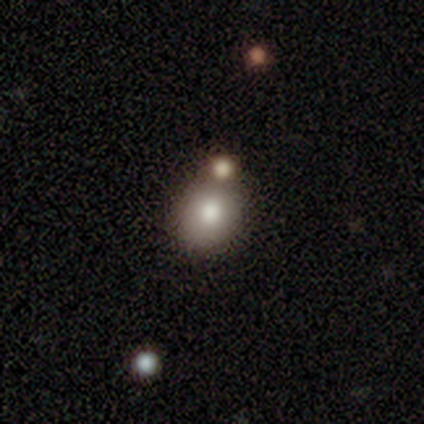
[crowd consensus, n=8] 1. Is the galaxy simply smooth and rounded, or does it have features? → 75% smooth, 25% star or artifact, 0% featured or disk.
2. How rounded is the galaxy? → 83% round, 17% in between, 0% cigar-shaped.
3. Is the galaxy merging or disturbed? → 67% none, 33% merger, 0% minor disturbance, 0% major disturbance.